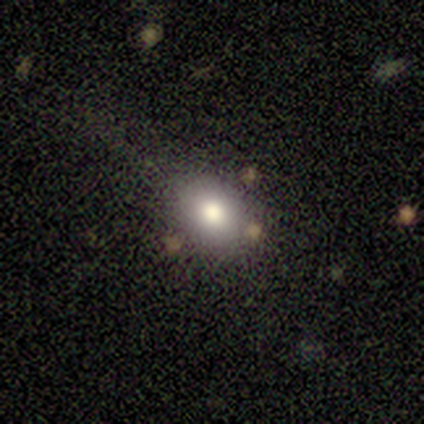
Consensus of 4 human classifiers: smooth-or-featured: smooth: 100% | featured or disk: 0% | star or artifact: 0%
  how-rounded: round: 75% | in between: 25% | cigar-shaped: 0%
  merging: none: 75% | minor disturbance: 25% | major disturbance: 0% | merger: 0%